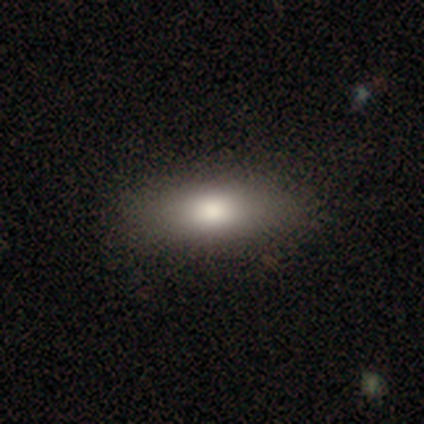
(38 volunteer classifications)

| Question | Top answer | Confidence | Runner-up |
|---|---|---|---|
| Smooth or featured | smooth | 92% | featured or disk (5%) |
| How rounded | in between | 74% | cigar-shaped (23%) |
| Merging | none | 68% | minor disturbance (5%) |